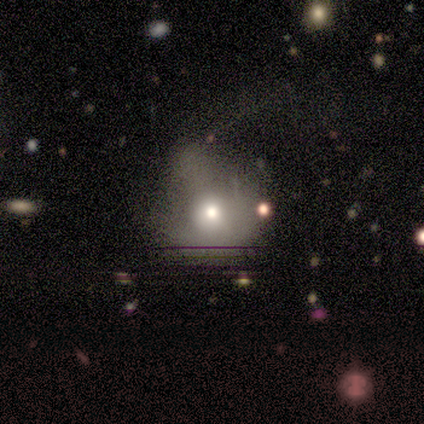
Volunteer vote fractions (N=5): A smooth galaxy with no disk features (40%, tied with featured or disk) that is round (100%).

Vote fractions:
- Smooth or featured? smooth: 40% (tied) / featured or disk: 40% (tied) / star or artifact: 20%
- How rounded? round: 100% / in between: 0% / cigar-shaped: 0%
- Merging? minor disturbance: 50% / major disturbance: 25% / merger: 25% / none: 0%